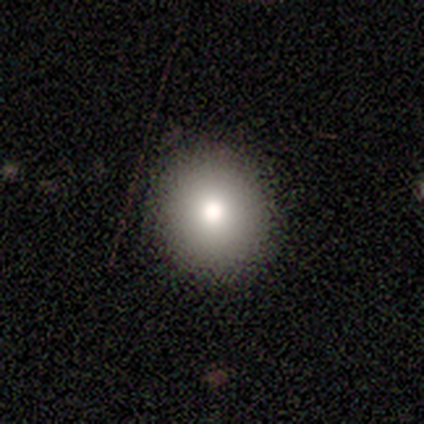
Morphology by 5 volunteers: Volunteers were most divided on "merging": none: 75%, minor disturbance: 25%, major disturbance: 0%, merger: 0%. More confident: how rounded — round (100%); smooth or featured — smooth (80%).